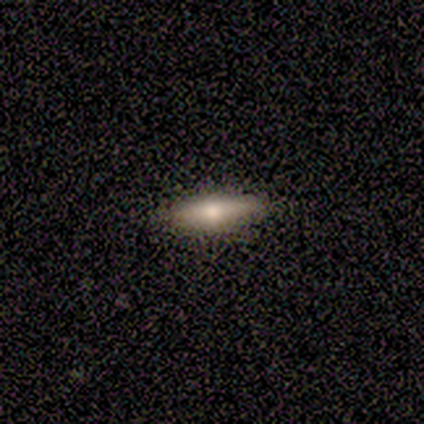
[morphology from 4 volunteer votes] Smooth or featured? smooth (50%, tied with featured or disk)
How rounded? cigar-shaped (100%)
Merging? none (100%)